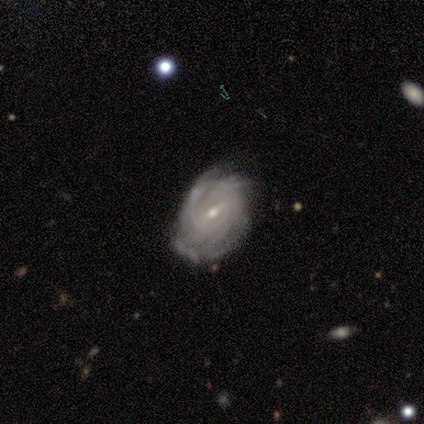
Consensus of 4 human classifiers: A featured or disk galaxy (100%) with a weak bar (50%), 1 (33%, tied with 2 and 4) tight (100%) spiral arms (75%) and a moderate central bulge (75%). Merging: none (50%, tied with minor disturbance).